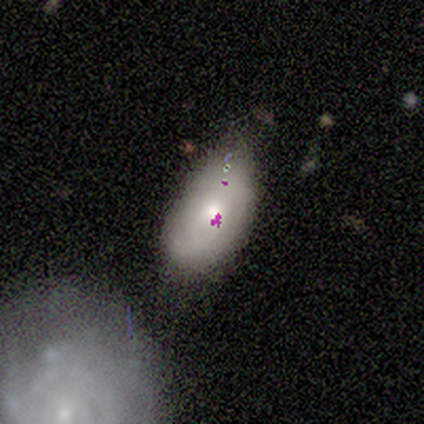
Smooth or featured: smooth — 50% (tied with featured or disk — 50%)
How rounded: in between — 100%
Merging: minor disturbance — 50% (none — 25%)